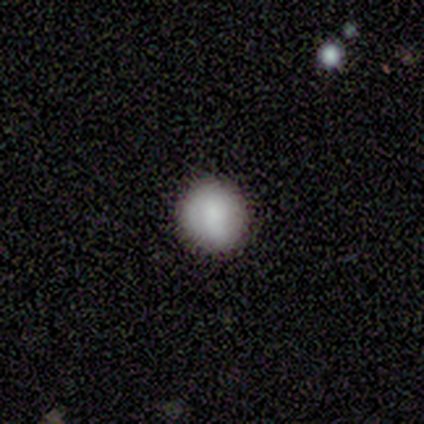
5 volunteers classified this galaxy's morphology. smooth_or_featured: smooth (p=1.00)
how_rounded: round (p=1.00)
merging: none (p=0.80) [alt: minor disturbance p=0.20]